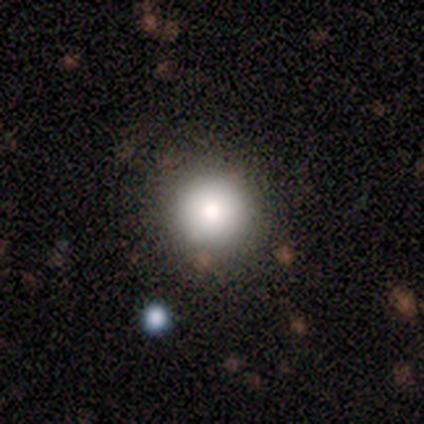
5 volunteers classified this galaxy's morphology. smooth_or_featured: smooth (p=0.80) [alt: featured or disk p=0.20]
how_rounded: round (p=1.00)
merging: none (p=1.00)